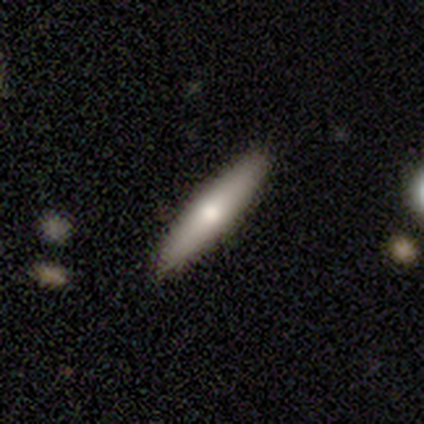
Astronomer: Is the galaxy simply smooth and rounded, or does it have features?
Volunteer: smooth — 65%.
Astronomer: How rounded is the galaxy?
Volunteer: cigar-shaped — 84%.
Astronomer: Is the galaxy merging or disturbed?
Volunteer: none — 91%.